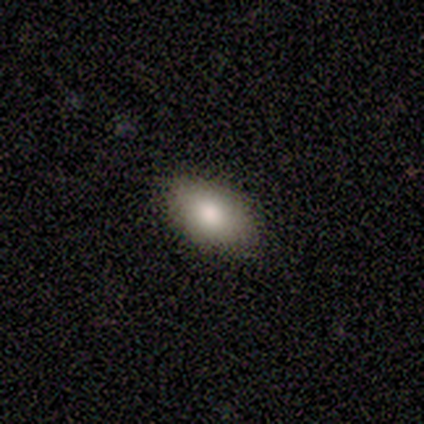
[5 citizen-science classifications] smooth-or-featured: smooth: 100% | featured or disk: 0% | star or artifact: 0%
  how-rounded: in between: 100% | round: 0% | cigar-shaped: 0%
  merging: none: 80% | minor disturbance: 20% | major disturbance: 0% | merger: 0%